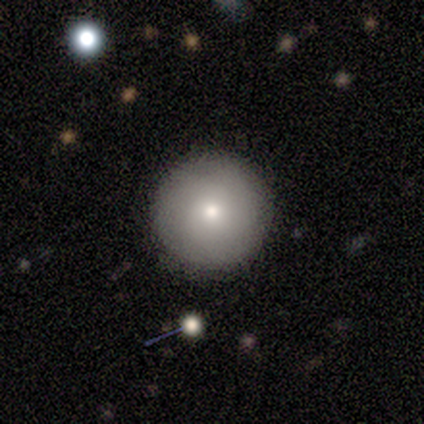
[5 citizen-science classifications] A smooth galaxy with no disk features (80%) that is round (100%).

Vote fractions:
- Smooth or featured? smooth: 80% / star or artifact: 20% / featured or disk: 0%
- How rounded? round: 100% / in between: 0% / cigar-shaped: 0%
- Merging? none: 50% / minor disturbance: 25% / major disturbance: 25% / merger: 0%